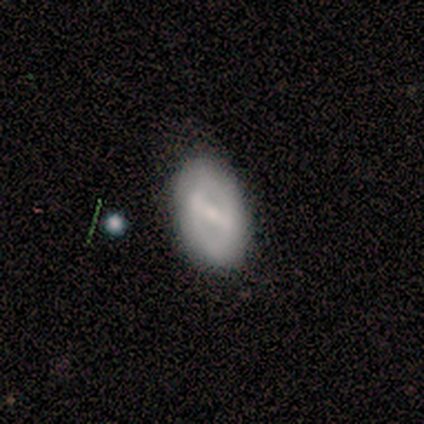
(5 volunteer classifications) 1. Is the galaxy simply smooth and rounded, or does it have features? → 40% smooth (tied), 40% featured or disk (tied), 20% star or artifact.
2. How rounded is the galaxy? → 100% in between, 0% round, 0% cigar-shaped.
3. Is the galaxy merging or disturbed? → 50% none (tied), 50% minor disturbance (tied), 0% major disturbance, 0% merger.